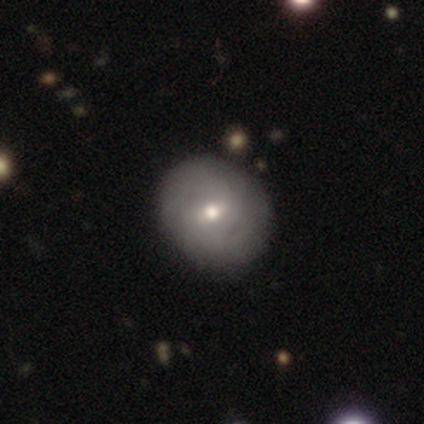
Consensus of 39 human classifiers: featured or disk 54%, smooth 33%, star or artifact 13%. Down the decision tree: edge-on disk — no (100%); bar — weak (62%); spiral arms — yes (67%); spiral arm count — can't tell (71%); spiral winding — tight (79%); bulge size — moderate (57%); merging — none (82%).